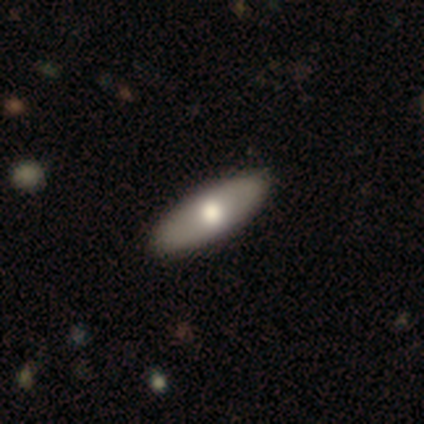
A smooth galaxy with no disk features (62%) that is in between round and cigar-shaped (84%). Merging: none (68%).